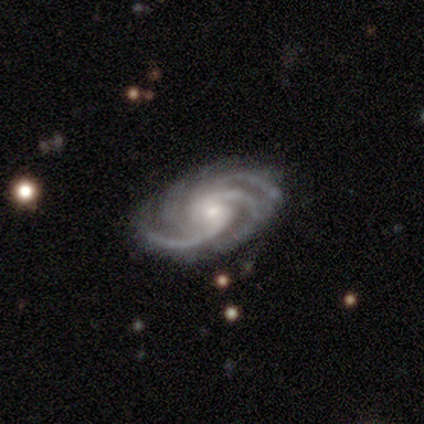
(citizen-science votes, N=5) Smooth or featured?
  - featured or disk: 100% *
  - smooth: 0%
  - star or artifact: 0%
Edge-on disk?
  - no: 80% *
  - yes: 20%
Bar?
  - no: 100% *
  - strong: 0%
  - weak: 0%
Spiral arms?
  - yes: 100% *
  - no: 0%
Spiral winding?
  - medium: 75% *
  - tight: 25%
  - loose: 0%
Spiral arm count?
  - 4: 75% *
  - 2: 25%
  - 1: 0%
  - 3: 0%
  - more than 4: 0%
  - can't tell: 0%
Bulge size?
  - moderate: 75% *
  - small: 25%
  - dominant: 0%
  - large: 0%
  - none: 0%
Merging?
  - none: 80% *
  - minor disturbance: 20%
  - major disturbance: 0%
  - merger: 0%